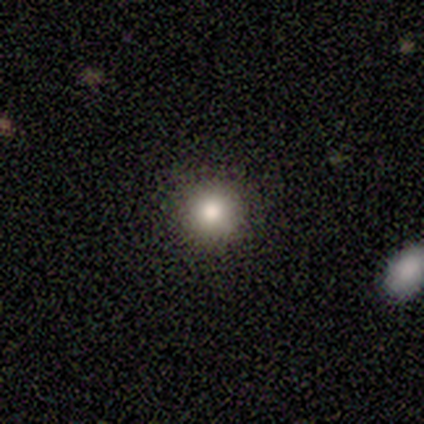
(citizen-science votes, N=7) Volunteers were most divided on "how rounded": round: 83%, cigar-shaped: 17%, in between: 0%. More confident: smooth or featured — smooth (86%); merging — none (83%).